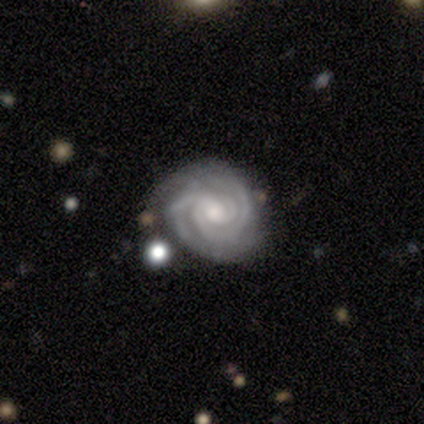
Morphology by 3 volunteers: Smooth or featured?
  - featured or disk: 100% *
  - smooth: 0%
  - star or artifact: 0%
Edge-on disk?
  - no: 100% *
  - yes: 0%
Bar?
  - no: 100% *
  - strong: 0%
  - weak: 0%
Spiral arms?
  - yes: 100% *
  - no: 0%
Spiral winding?
  - tight: 100% *
  - medium: 0%
  - loose: 0%
Spiral arm count?
  - 3: 100% *
  - 1: 0%
  - 2: 0%
  - 4: 0%
  - more than 4: 0%
  - can't tell: 0%
Bulge size?
  - moderate: 67% *
  - small: 33%
  - dominant: 0%
  - large: 0%
  - none: 0%
Merging?
  - none: 67% *
  - minor disturbance: 33%
  - major disturbance: 0%
  - merger: 0%